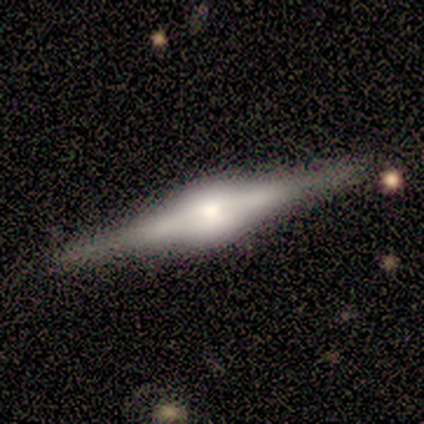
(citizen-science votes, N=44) Morphology: type=featured or disk (89%); edge-on=yes (97%); edge-on bulge=rounded (79%); merging=none (85%).